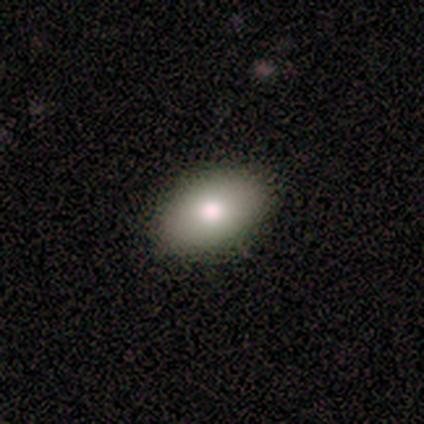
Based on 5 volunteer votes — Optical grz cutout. It shows a smooth galaxy with no disk features (80%) that is in between round and cigar-shaped (100%). Merging: none (100%).